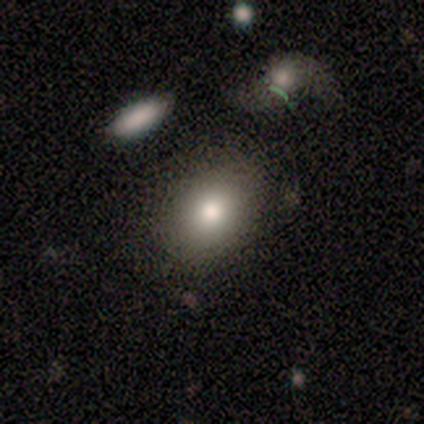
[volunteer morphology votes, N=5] Volunteers were most divided on "smooth or featured": smooth: 80%, featured or disk: 20%, star or artifact: 0%. More confident: how rounded — in between (100%); merging — none (100%).